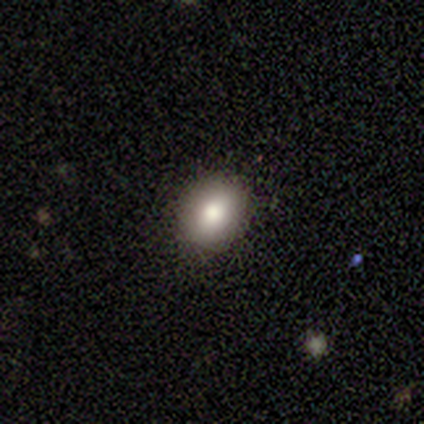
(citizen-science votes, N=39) Overall: smooth (72%). How rounded: round (50%, tied with in between). Merging: none (91%).